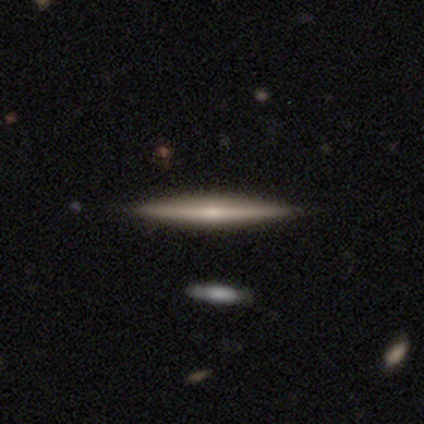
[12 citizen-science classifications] Smooth or featured?
  - featured or disk: 67% *
  - smooth: 33%
  - star or artifact: 0%
Edge-on disk?
  - yes: 100% *
  - no: 0%
Edge-on bulge?
  - rounded: 75% *
  - none: 25%
  - boxy: 0%
Merging?
  - none: 100% *
  - minor disturbance: 0%
  - major disturbance: 0%
  - merger: 0%